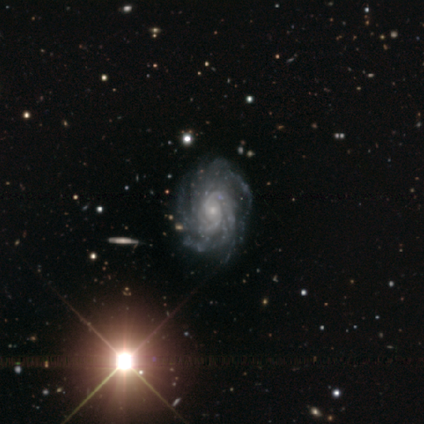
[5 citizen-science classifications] Smooth or featured?
  - featured or disk: 100% *
  - smooth: 0%
  - star or artifact: 0%
Edge-on disk?
  - no: 100% *
  - yes: 0%
Bar?
  - no: 80% *
  - weak: 20%
  - strong: 0%
Spiral arms?
  - yes: 100% *
  - no: 0%
Spiral winding?
  - tight: 100% *
  - medium: 0%
  - loose: 0%
Spiral arm count?
  - more than 4: 40% *
  - 3: 20%
  - 4: 20%
  - can't tell: 20%
  - 1: 0%
  - 2: 0%
Bulge size?
  - small: 60% *
  - moderate: 40%
  - dominant: 0%
  - large: 0%
  - none: 0%
Merging?
  - none: 80% *
  - minor disturbance: 20%
  - major disturbance: 0%
  - merger: 0%